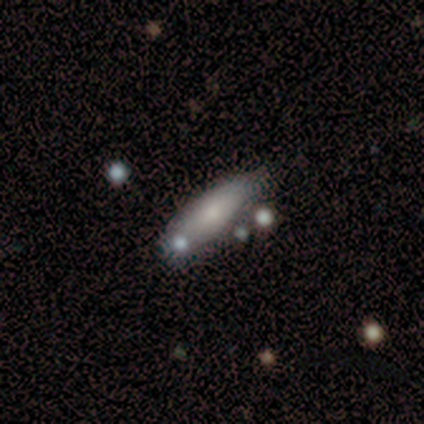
A smooth galaxy with no disk features (74%) that is cigar-shaped (57%).

Vote fractions:
- Smooth or featured? smooth: 74% / featured or disk: 26% / star or artifact: 0%
- How rounded? cigar-shaped: 57% / in between: 43% / round: 0%
- Merging? none: 66% / minor disturbance: 21% / merger: 11% / major disturbance: 3%